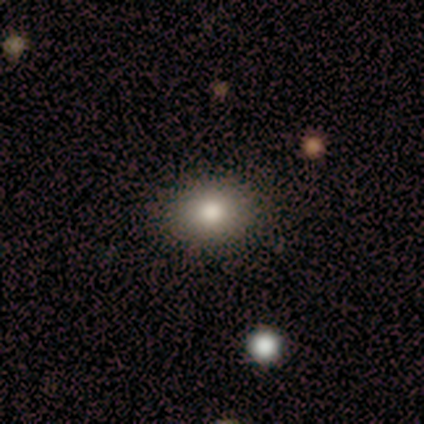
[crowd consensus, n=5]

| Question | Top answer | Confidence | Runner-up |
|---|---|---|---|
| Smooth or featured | smooth | 80% | featured or disk (20%) |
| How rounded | in between | 100% | — |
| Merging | none | 80% | minor disturbance (20%) |